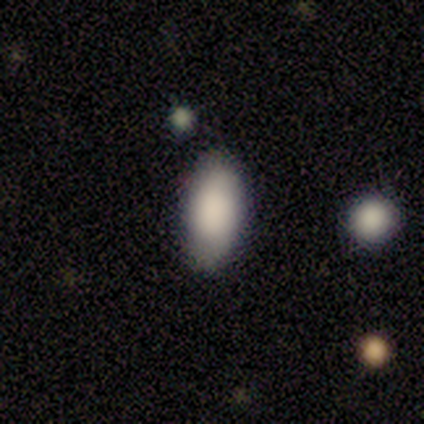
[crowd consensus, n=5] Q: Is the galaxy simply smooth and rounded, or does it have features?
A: smooth — 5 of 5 (100%).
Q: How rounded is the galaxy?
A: in between — 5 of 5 (100%).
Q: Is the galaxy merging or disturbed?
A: none — 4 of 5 (80%).